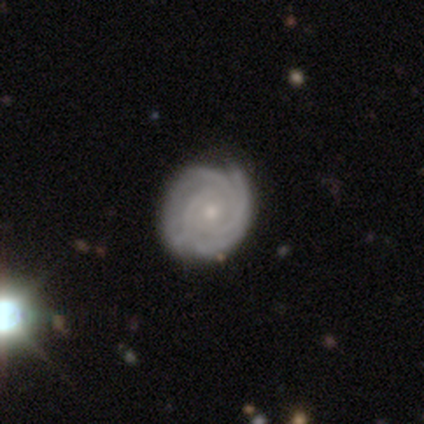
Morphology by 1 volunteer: This is clearly a featured or disk galaxy (100%). It is clearly not viewed edge-on (100%). Bar: clearly no (100%). Spiral arm pattern: clearly yes (100%). Spiral arm count: clearly 3 (100%). Spiral winding: clearly tight (100%). Central bulge: clearly small (100%). Merging: clearly none (100%).